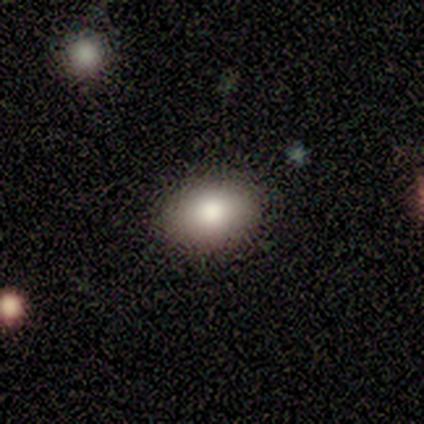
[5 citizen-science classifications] smooth-or-featured: smooth: 80% | star or artifact: 20% | featured or disk: 0%
  how-rounded: in between: 100% | round: 0% | cigar-shaped: 0%
  merging: none: 75% | minor disturbance: 25% | major disturbance: 0% | merger: 0%